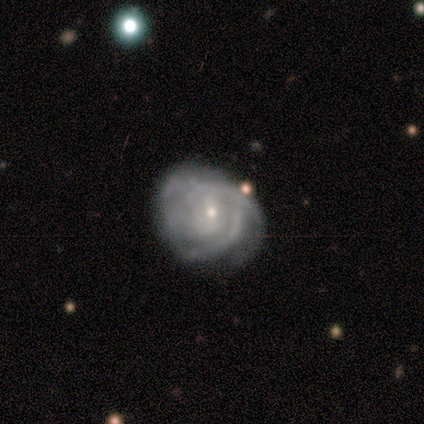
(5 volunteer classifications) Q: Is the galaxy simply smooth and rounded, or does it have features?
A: featured or disk — 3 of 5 (60%).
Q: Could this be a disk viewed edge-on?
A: no — 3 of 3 (100%).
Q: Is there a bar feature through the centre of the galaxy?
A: no — 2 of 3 (67%).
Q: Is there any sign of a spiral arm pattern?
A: yes — 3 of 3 (100%).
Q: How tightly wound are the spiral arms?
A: tight — 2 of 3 (67%).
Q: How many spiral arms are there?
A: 3 — 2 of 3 (67%).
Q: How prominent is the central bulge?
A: small — 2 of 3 (67%).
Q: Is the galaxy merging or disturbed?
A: none — 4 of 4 (100%).